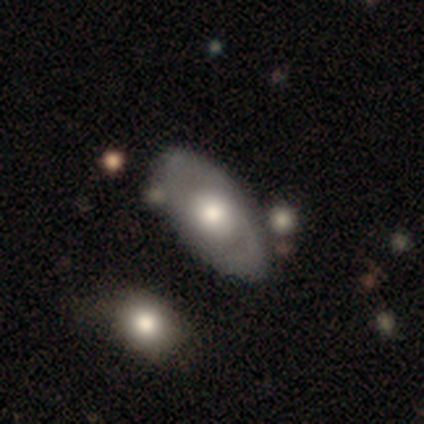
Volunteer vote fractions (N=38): Volunteers were most divided on "smooth or featured": smooth: 50%, featured or disk: 47%, star or artifact: 3%. More confident: how rounded — in between (79%); merging — none (68%).